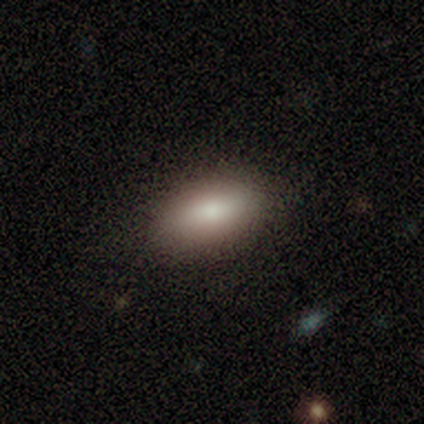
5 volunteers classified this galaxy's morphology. Overall: smooth (80%). How rounded: in between (75%). Merging: none (100%).